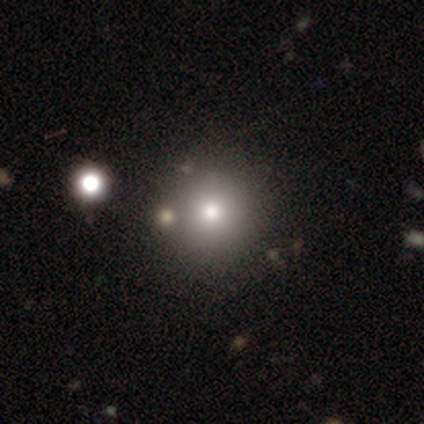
This is likely a smooth galaxy (71%). How rounded: clearly round (100%). Merging: clearly none (82%).